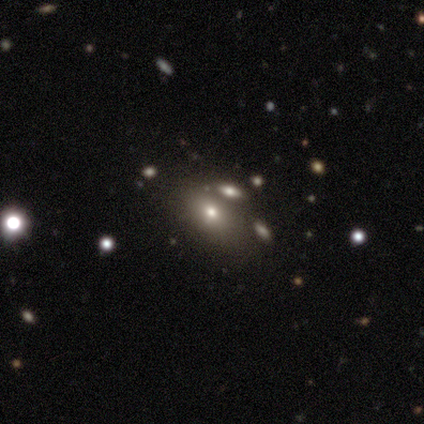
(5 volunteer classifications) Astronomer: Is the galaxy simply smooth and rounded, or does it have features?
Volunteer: smooth — 80%.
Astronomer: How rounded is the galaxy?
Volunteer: in between — 75%.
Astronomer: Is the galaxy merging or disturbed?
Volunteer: none — 100%.